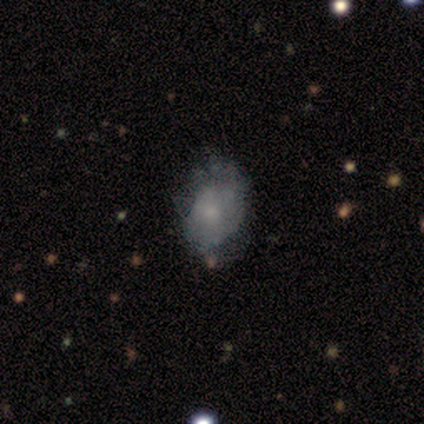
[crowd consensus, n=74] This is possibly a featured or disk galaxy (46%). It is clearly not viewed edge-on (100%). Bar: clearly no (91%). Spiral arm pattern: possibly no (59%). Central bulge: marginally small (41%). Merging: possibly none (48%).